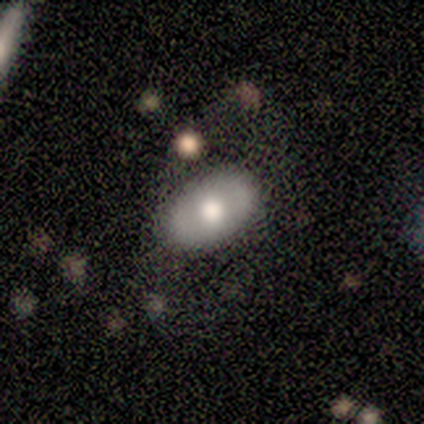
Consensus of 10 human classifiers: Smooth or featured: smooth — 50% (featured or disk — 30%)
How rounded: in between — 100%
Merging: none — 62% (minor disturbance — 25%)